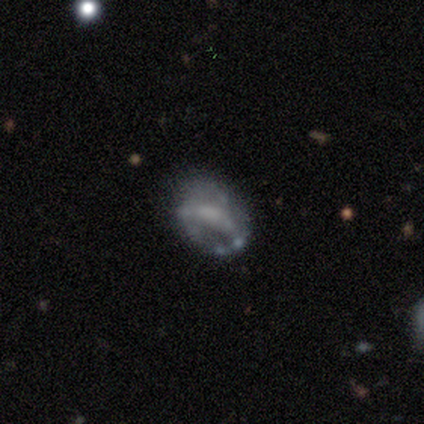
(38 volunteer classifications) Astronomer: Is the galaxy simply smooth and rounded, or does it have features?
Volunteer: featured or disk — 55% (runner-up: smooth, 39%).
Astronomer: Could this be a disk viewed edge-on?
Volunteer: no — 100%.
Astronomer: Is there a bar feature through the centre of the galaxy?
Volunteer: no — 62%.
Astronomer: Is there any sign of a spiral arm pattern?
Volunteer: no — 86%.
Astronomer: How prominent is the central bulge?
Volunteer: none — 57%.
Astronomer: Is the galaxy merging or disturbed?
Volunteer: none — 42% (runner-up: minor disturbance, 28%).